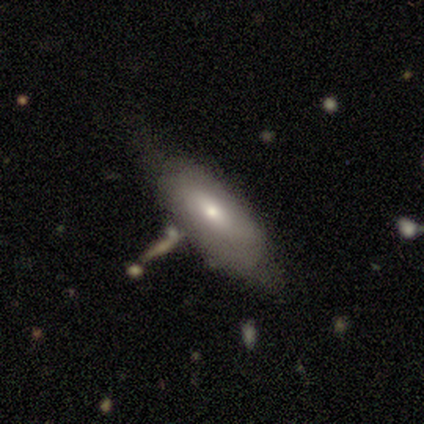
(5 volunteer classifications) Smooth or featured? 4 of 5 (80%) said featured or disk. Edge-on disk? 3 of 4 (75%) said no. Bar? 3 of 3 (100%) said weak. Spiral arms? 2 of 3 (67%) said no. Bulge size? 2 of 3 (67%) said moderate. Merging? 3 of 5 (60%) said none.